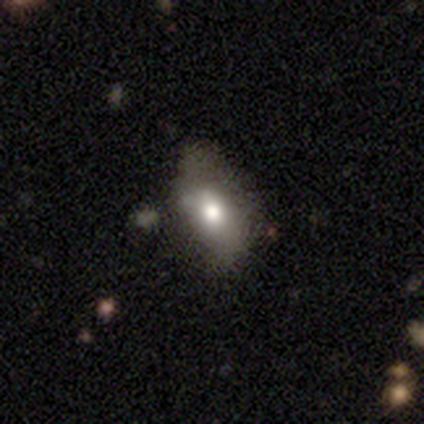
smooth-or-featured: smooth: 80% | featured or disk: 20% | star or artifact: 0%
  how-rounded: in between: 100% | round: 0% | cigar-shaped: 0%
  merging: none: 80% | major disturbance: 20% | minor disturbance: 0% | merger: 0%